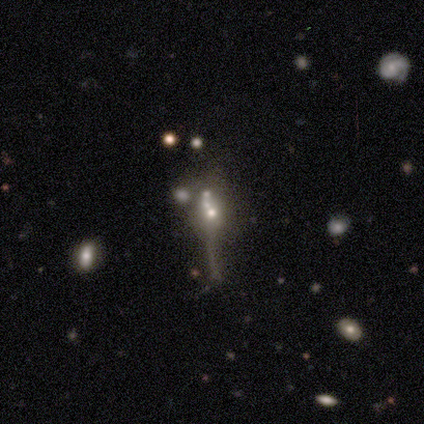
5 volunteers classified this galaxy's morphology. Q: Smooth or featured?
A: star or artifact (60%); runner-up: smooth (20%)